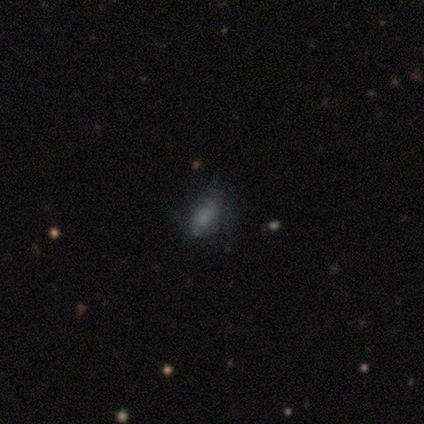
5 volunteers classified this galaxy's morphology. This is likely a smooth galaxy (60%). How rounded: clearly in between (100%). Merging: likely none (60%).